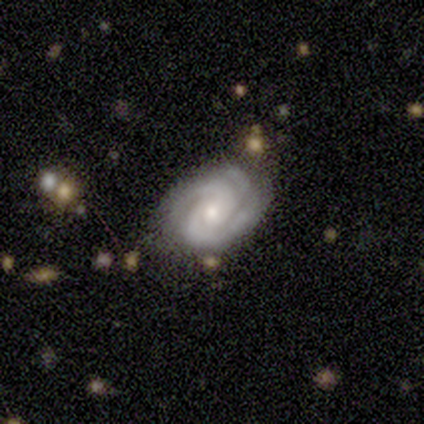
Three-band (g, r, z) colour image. It shows a smooth galaxy with no disk features (40%, tied with featured or disk) that is in between round and cigar-shaped (100%). Merging: none (50%, tied with minor disturbance).